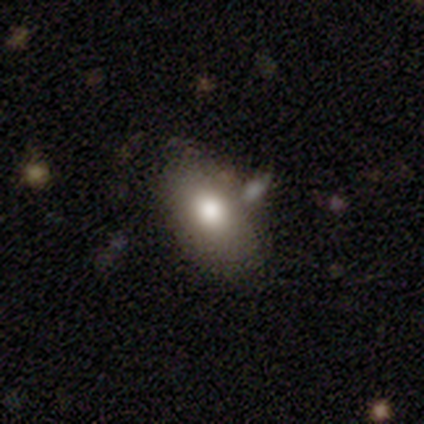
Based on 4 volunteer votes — A smooth galaxy with no disk features (75%) that is in between round and cigar-shaped (100%).

Vote fractions:
- Smooth or featured? smooth: 75% / featured or disk: 25% / star or artifact: 0%
- How rounded? in between: 100% / round: 0% / cigar-shaped: 0%
- Merging? minor disturbance: 75% / none: 25% / major disturbance: 0% / merger: 0%